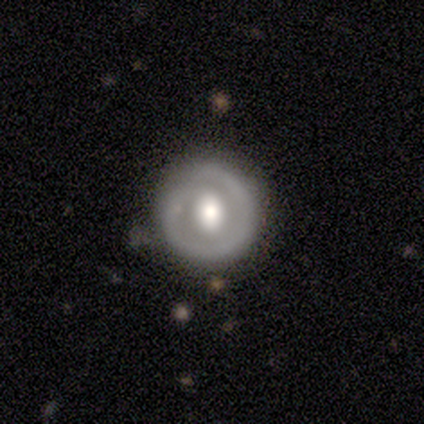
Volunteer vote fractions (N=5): A featured or disk galaxy (60%) with no bar (67%), no spiral arms (67%) and a moderate central bulge (67%). Merging: none (80%).